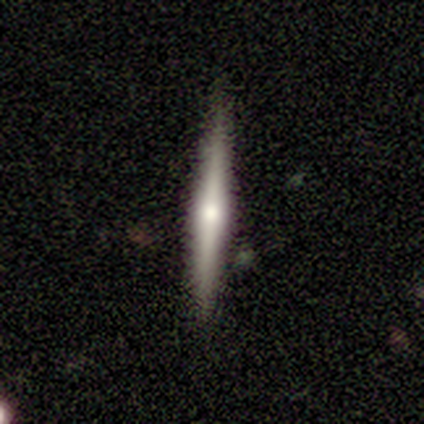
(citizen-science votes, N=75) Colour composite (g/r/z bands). It shows a featured or disk galaxy (79%) viewed edge-on (100%) with a rounded central bulge (86%). Merging: none (88%).